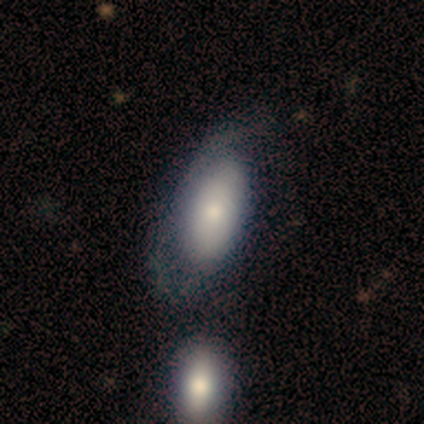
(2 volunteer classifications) smooth-or-featured: smooth: 50% (tied) | featured or disk: 50% (tied) | star or artifact: 0%
  how-rounded: in between: 100% | round: 0% | cigar-shaped: 0%
  merging: none: 50% (tied) | merger: 50% (tied) | minor disturbance: 0% | major disturbance: 0%